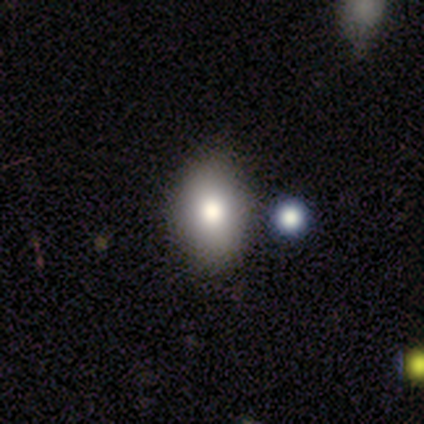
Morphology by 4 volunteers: This is likely a smooth galaxy (75%). How rounded: likely round (67%). Merging: clearly none (100%).